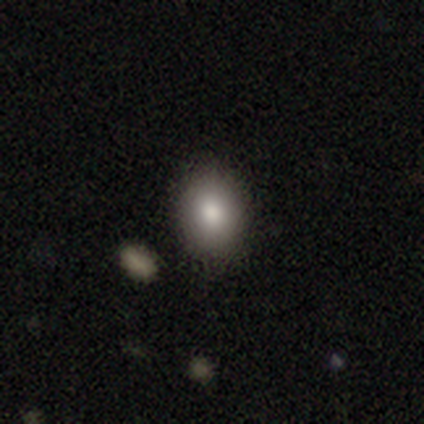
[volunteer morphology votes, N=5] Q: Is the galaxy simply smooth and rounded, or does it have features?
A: smooth — 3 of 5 (60%).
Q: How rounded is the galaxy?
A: in between — 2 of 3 (67%).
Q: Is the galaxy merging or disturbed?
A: none — 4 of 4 (100%).